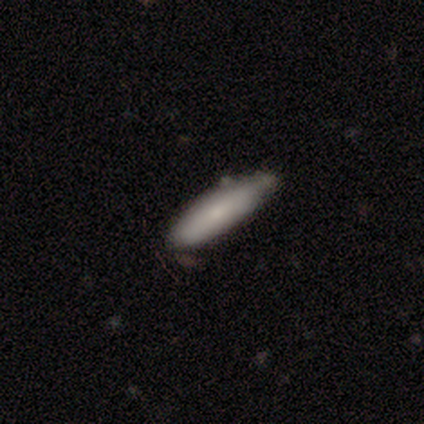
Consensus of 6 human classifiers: Smooth or featured? 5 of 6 (83%) said smooth. How rounded? 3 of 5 (60%) said in between. Merging? 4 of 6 (67%) said none.